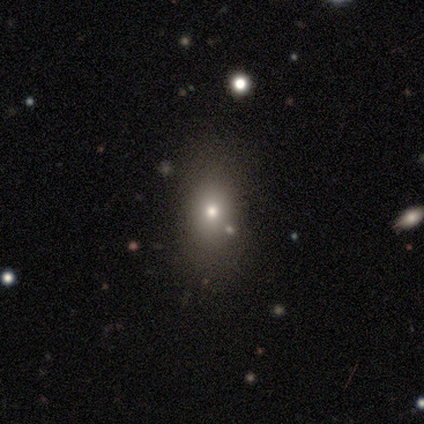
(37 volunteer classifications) This is likely a smooth galaxy (68%). How rounded: clearly in between (80%). Merging: likely none (68%).